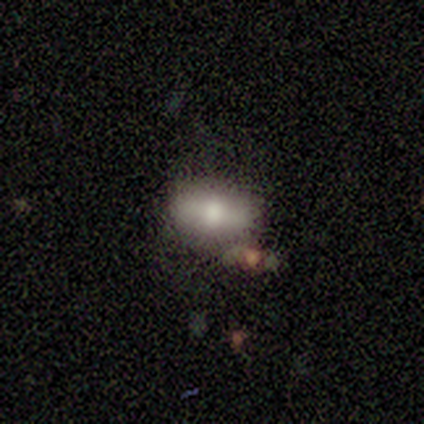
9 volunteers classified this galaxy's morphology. A smooth galaxy with no disk features (56%) that is in between round and cigar-shaped (100%).

Vote fractions:
- Smooth or featured? smooth: 56% / featured or disk: 44% / star or artifact: 0%
- How rounded? in between: 100% / round: 0% / cigar-shaped: 0%
- Merging? none: 89% / major disturbance: 11% / minor disturbance: 0% / merger: 0%